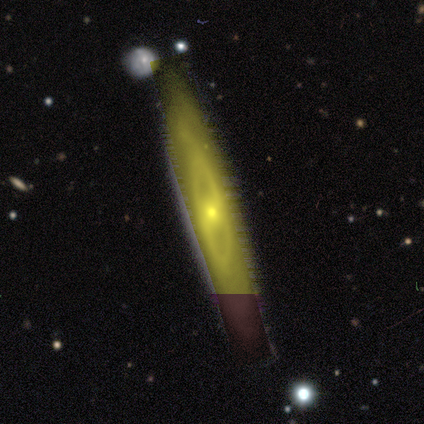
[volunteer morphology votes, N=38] smooth_or_featured: featured or disk (p=0.82) [alt: star or artifact p=0.16]
disk_edge_on: no (p=0.68) [alt: yes p=0.32]
bar: no (p=0.76) [alt: weak p=0.24]
has_spiral_arms: no (p=0.76) [alt: yes p=0.24]
bulge_size: moderate (p=0.67) [alt: small p=0.33]
merging: none (p=0.78) [alt: minor disturbance p=0.09]